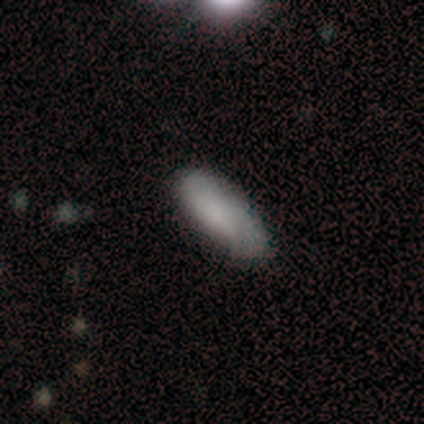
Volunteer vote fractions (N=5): Morphology: type=smooth (80%); roundness=in between (75%); merging=none (80%).